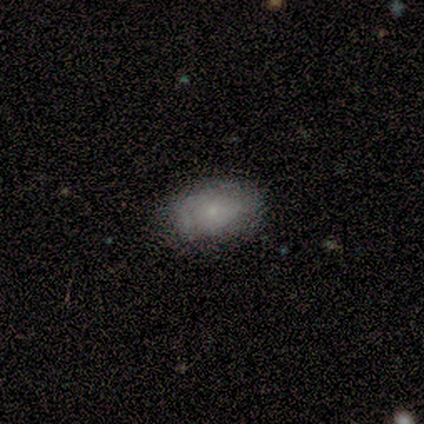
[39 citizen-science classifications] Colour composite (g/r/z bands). It shows a smooth galaxy with no disk features (56%) that is in between round and cigar-shaped (86%). Merging: none (51%).